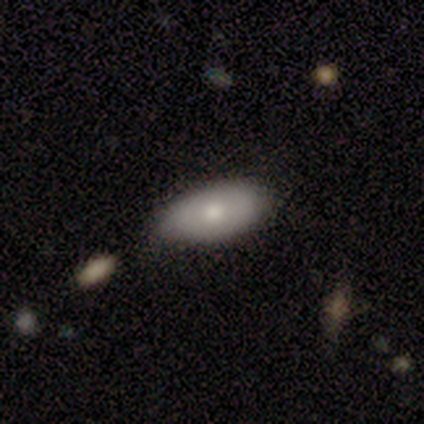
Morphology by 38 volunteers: This appears to be a smooth galaxy with no disk features (71%) that is in between round and cigar-shaped (93%). Merging: none (72%).